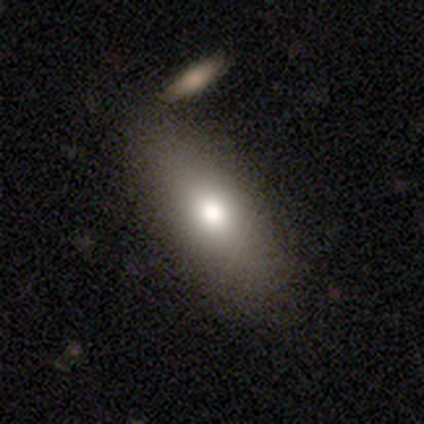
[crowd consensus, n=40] smooth 75%, featured or disk 22%, star or artifact 2%. Down the decision tree: how rounded — in between (80%); merging — none (64%).